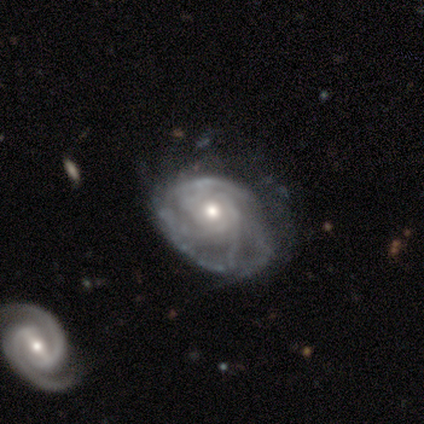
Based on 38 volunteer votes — Morphology: type=featured or disk (89%); edge-on=no (100%); bar=no (76%); spiral arms=yes (97%); winding=tight (58%); arm count=can't tell (45%); bulge=moderate (76%); merging=minor disturbance (44%).